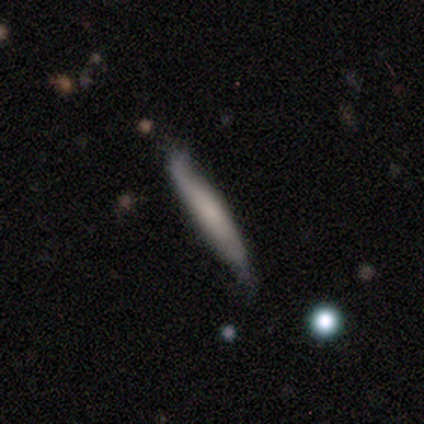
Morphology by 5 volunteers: smooth_or_featured: smooth (p=0.60) [alt: featured or disk p=0.40]
how_rounded: cigar-shaped (p=0.67) [alt: in between p=0.33]
merging: minor disturbance (p=0.60) [alt: none p=0.40]